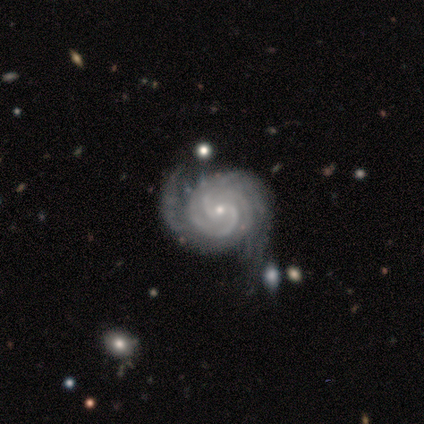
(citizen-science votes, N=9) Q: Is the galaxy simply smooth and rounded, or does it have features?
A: featured or disk — 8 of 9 (89%).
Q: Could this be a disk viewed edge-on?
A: no — 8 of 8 (100%).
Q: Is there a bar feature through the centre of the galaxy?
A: no — 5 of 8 (62%).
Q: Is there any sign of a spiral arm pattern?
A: yes — 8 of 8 (100%).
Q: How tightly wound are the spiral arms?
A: tight — 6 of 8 (75%).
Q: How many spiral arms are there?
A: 3 — 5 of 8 (62%).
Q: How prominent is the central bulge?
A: small — 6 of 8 (75%).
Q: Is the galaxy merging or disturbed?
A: none — 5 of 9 (56%).